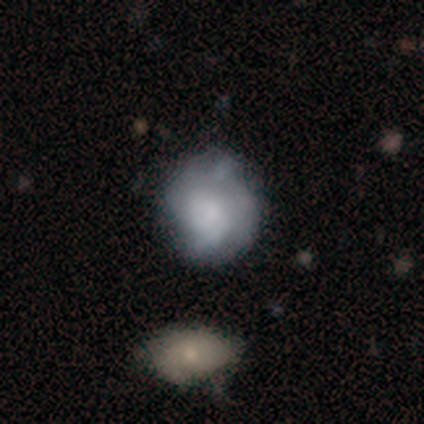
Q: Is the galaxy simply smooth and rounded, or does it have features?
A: featured or disk — 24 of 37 (65%).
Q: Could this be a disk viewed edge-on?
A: no — 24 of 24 (100%).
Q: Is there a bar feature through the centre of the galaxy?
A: no — 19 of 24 (79%).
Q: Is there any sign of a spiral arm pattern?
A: yes — 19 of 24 (79%).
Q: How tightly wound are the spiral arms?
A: medium — 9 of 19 (47%).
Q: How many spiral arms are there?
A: can't tell — 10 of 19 (53%).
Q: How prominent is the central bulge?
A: small — 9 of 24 (38%).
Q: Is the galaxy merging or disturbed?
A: none — 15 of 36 (42%).